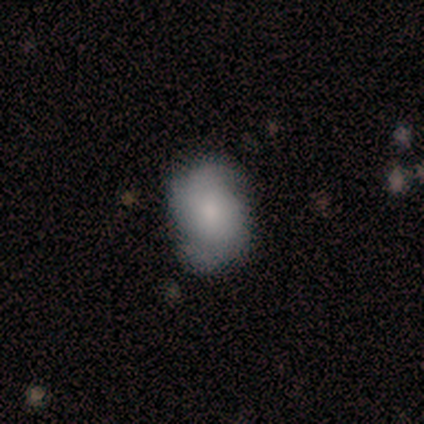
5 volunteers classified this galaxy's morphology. Overall: featured or disk (60%; smooth 40%). Edge-on disk: no (100%). Bar: no (100%). Spiral arms: yes (67%; no 33%). Spiral arm count: 2 (50%, tied with can't tell). Spiral winding: tight (100%). Bulge size: moderate (67%; small 33%). Merging: none (60%; minor disturbance 20%).